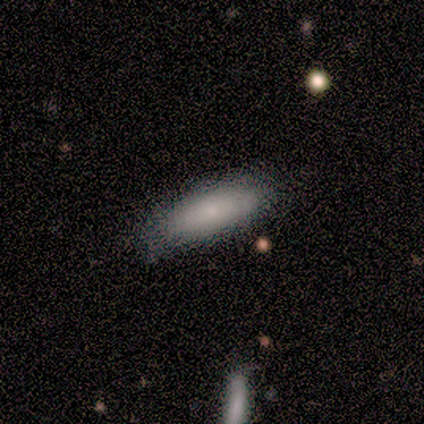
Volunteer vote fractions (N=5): Volunteers were most divided on "how rounded" (2-way tie): in between: 50%, cigar-shaped: 50%, round: 0%. More confident: merging — none (100%); smooth or featured — smooth (80%).